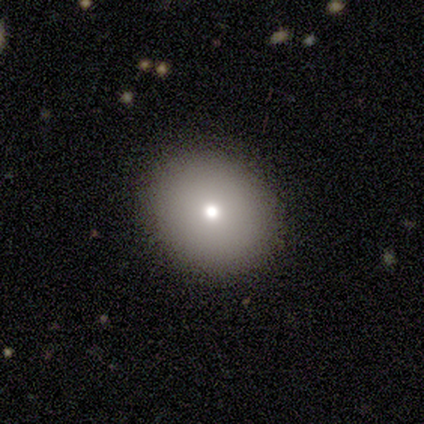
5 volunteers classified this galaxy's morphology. Smooth or featured: smooth — 40% (tied with featured or disk — 40%)
How rounded: round — 50% (tied with in between — 50%)
Merging: none — 100%